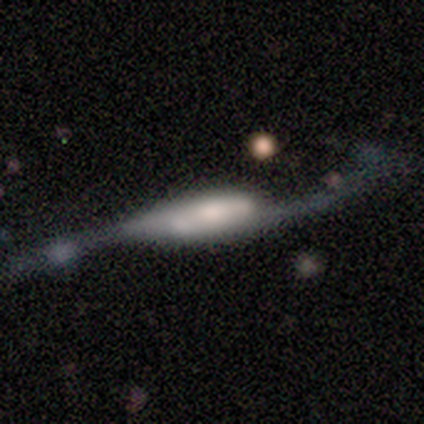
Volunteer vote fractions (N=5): Smooth or featured? 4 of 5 (80%) said featured or disk. Edge-on disk? 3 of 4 (75%) said no. Bar? 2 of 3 (67%) said strong. Spiral arms? 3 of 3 (100%) said yes. Spiral winding? 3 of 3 (100%) said loose. Spiral arm count? 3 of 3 (100%) said 2. Bulge size? 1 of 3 (33%, tied with large and small) said dominant. Merging? 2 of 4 (50%) said none.